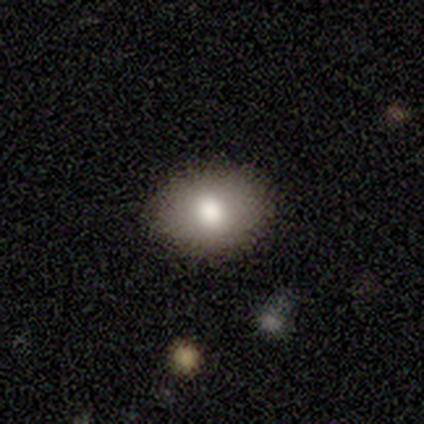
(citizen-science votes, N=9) Morphology: type=smooth (56%); roundness=in between (80%); merging=none (78%).